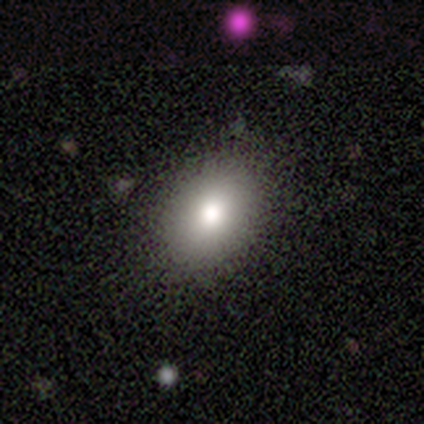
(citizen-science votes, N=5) Q: Smooth or featured?
A: smooth (80%); runner-up: featured or disk (20%)
Q: How rounded?
A: in between (100%)
Q: Merging?
A: none (100%)